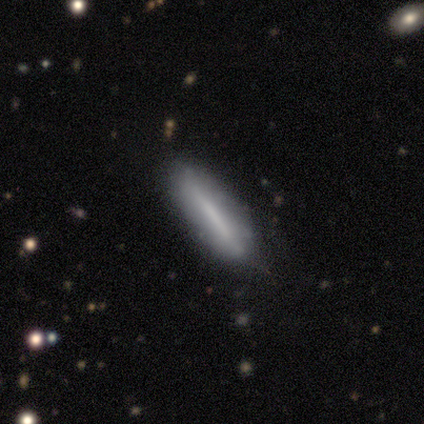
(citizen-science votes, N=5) smooth 80%, featured or disk 20%, star or artifact 0%. Down the decision tree: how rounded — cigar-shaped (100%); merging — none (80%).